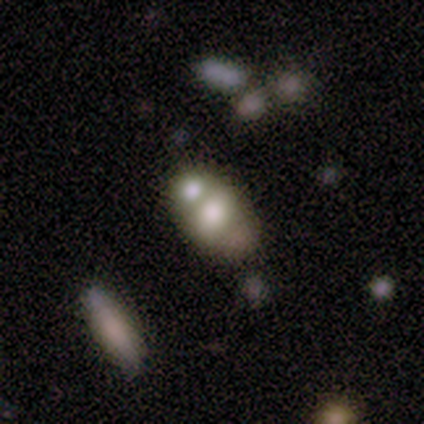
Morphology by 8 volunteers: Q: Smooth or featured?
A: featured or disk (88%); runner-up: star or artifact (12%)
Q: Edge-on disk?
A: no (100%)
Q: Bar?
A: no (100%)
Q: Spiral arms?
A: no (100%)
Q: Bulge size?
A: moderate (57%); runner-up: large (29%)
Q: Merging?
A: merger (57%); runner-up: minor disturbance (29%)